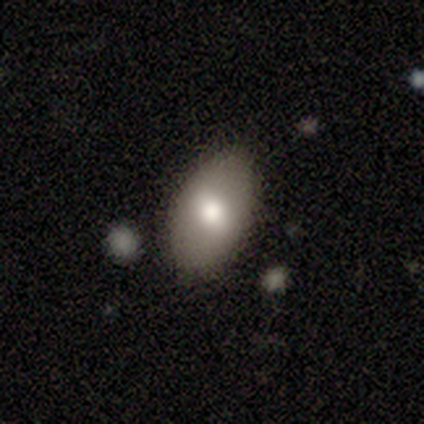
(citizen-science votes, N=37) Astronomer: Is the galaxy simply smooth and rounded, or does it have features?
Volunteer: smooth — 65%.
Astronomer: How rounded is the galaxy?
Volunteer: in between — 92%.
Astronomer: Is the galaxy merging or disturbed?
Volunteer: none — 83%.